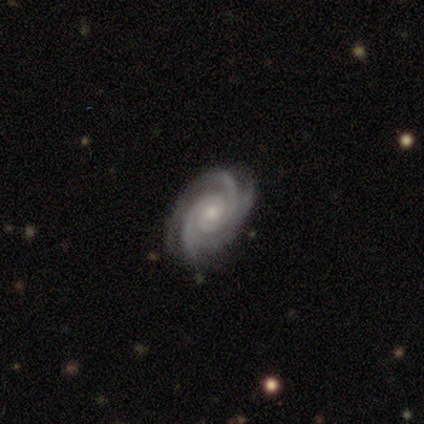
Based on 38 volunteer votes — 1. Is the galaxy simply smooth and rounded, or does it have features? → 95% featured or disk, 5% smooth, 0% star or artifact.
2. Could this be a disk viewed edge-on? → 100% no, 0% yes.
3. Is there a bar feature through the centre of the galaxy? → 69% no, 19% weak, 11% strong.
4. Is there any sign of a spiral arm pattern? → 97% yes, 3% no.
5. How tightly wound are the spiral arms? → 83% tight, 14% medium, 3% loose.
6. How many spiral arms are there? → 46% 3, 37% 2, 9% 4, 6% can't tell, 3% more than 4, 0% 1.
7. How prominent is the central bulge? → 56% small, 36% moderate, 6% none, 3% large, 0% dominant.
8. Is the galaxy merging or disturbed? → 84% none, 13% minor disturbance, 3% major disturbance, 0% merger.